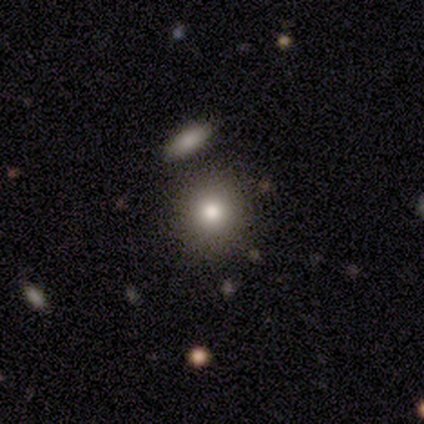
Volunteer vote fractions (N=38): Overall: smooth (74%). How rounded: round (93%). Merging: none (82%).